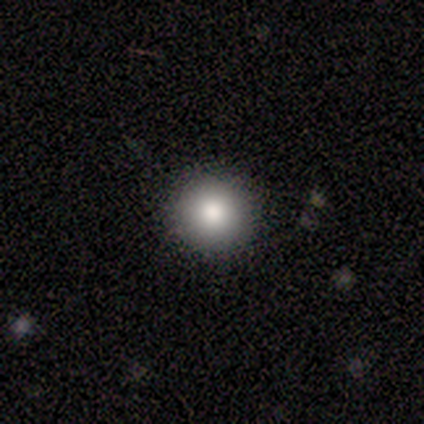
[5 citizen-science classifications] smooth_or_featured: smooth (p=0.80) [alt: featured or disk p=0.20]
how_rounded: round (p=1.00)
merging: none (p=1.00)